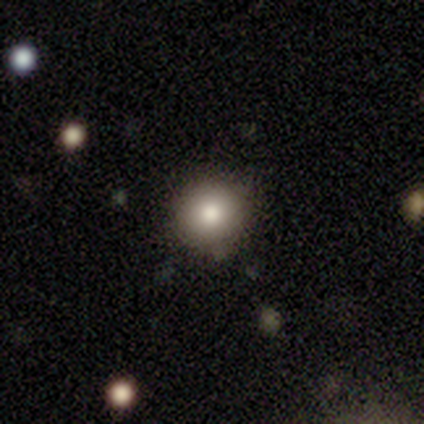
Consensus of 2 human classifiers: Smooth or featured?
  - smooth: 50% * (tied)
  - star or artifact: 50% * (tied)
  - featured or disk: 0%
How rounded?
  - round: 100% *
  - in between: 0%
  - cigar-shaped: 0%
Merging?
  - none: 100% *
  - minor disturbance: 0%
  - major disturbance: 0%
  - merger: 0%